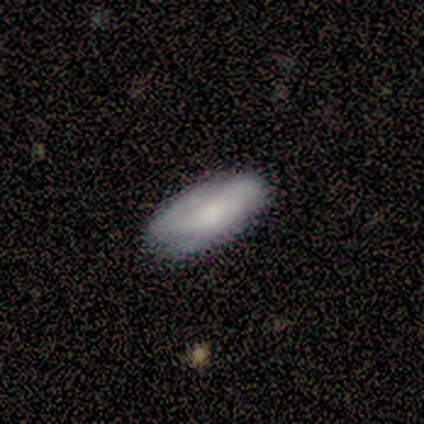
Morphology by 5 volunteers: Q: Smooth or featured?
A: smooth (80%); runner-up: star or artifact (20%)
Q: How rounded?
A: in between (100%)
Q: Merging?
A: none (75%); runner-up: minor disturbance (25%)